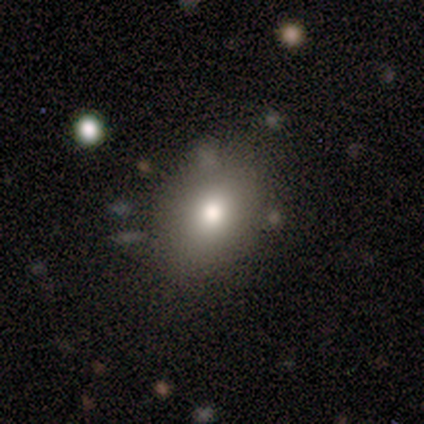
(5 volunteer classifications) Smooth or featured?
  - smooth: 100% *
  - featured or disk: 0%
  - star or artifact: 0%
How rounded?
  - in between: 80% *
  - round: 20%
  - cigar-shaped: 0%
Merging?
  - none: 100% *
  - minor disturbance: 0%
  - major disturbance: 0%
  - merger: 0%